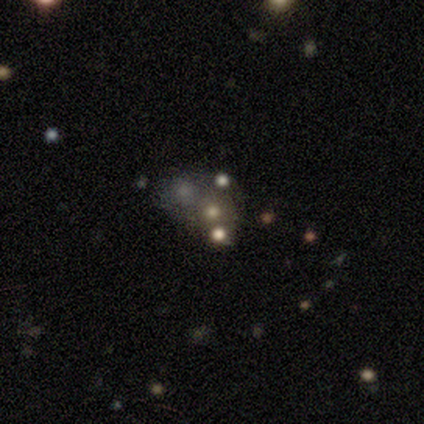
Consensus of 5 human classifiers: Overall: star or artifact (60%; smooth 20%).